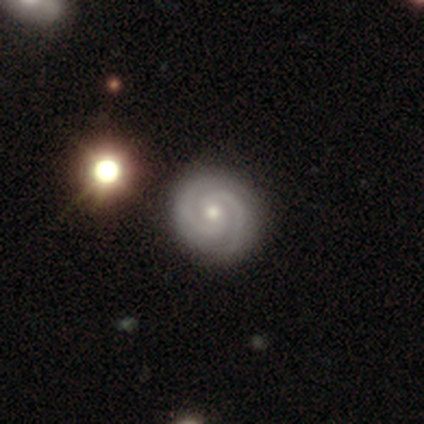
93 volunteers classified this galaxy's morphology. smooth_or_featured: featured or disk (p=0.86) [alt: star or artifact p=0.09]
disk_edge_on: no (p=0.99) [alt: yes p=0.01]
bar: no (p=0.62) [alt: weak p=0.30]
has_spiral_arms: yes (p=0.97) [alt: no p=0.03]
spiral_winding: tight (p=0.71) [alt: medium p=0.27]
spiral_arm_count: 2 (p=0.92) [alt: 3 p=0.06]
bulge_size: small (p=0.62) [alt: moderate p=0.35]
merging: none (p=0.85) [alt: minor disturbance p=0.11]